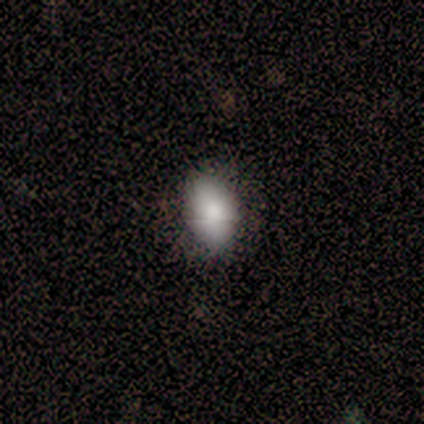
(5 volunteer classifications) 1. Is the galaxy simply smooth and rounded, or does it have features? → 100% smooth, 0% featured or disk, 0% star or artifact.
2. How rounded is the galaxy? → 80% in between, 20% round, 0% cigar-shaped.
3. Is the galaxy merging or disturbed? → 80% none, 20% minor disturbance, 0% major disturbance, 0% merger.